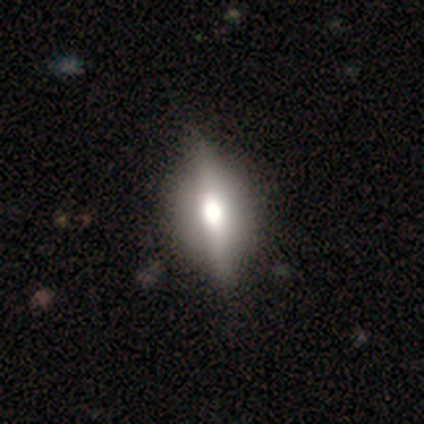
Smooth or featured? featured or disk (57%)
Edge-on disk? yes (100%)
Edge-on bulge? rounded (100%)
Merging? none (71%)